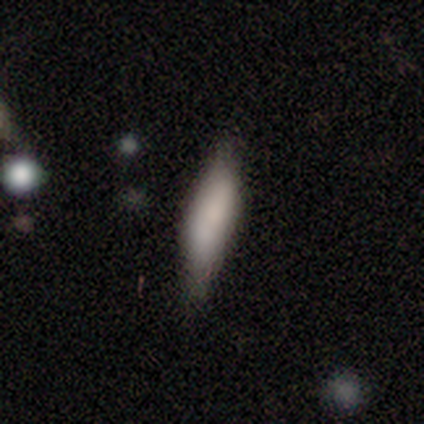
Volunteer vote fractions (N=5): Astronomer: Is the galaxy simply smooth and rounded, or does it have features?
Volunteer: smooth — 80%.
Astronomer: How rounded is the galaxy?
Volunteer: in between — 75%.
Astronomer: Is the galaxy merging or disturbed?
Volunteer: none — 60% (runner-up: minor disturbance, 40%).